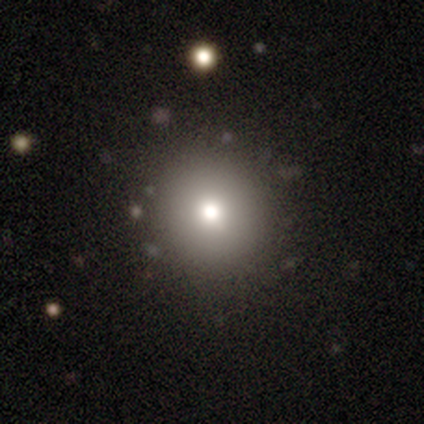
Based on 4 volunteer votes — Smooth or featured?
  - smooth: 50% * (tied)
  - featured or disk: 50% * (tied)
  - star or artifact: 0%
How rounded?
  - round: 100% *
  - in between: 0%
  - cigar-shaped: 0%
Merging?
  - none: 75% *
  - minor disturbance: 25%
  - major disturbance: 0%
  - merger: 0%